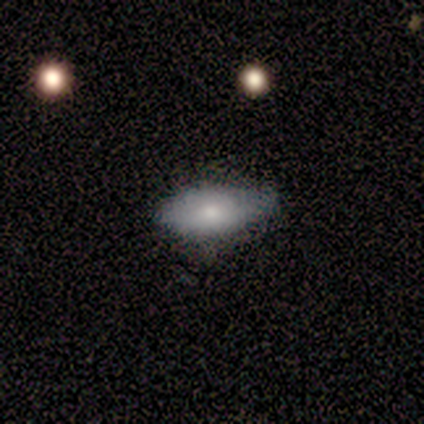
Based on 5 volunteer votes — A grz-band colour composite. It shows a smooth galaxy with no disk features (100%) that is in between round and cigar-shaped (100%). Merging: none (80%).